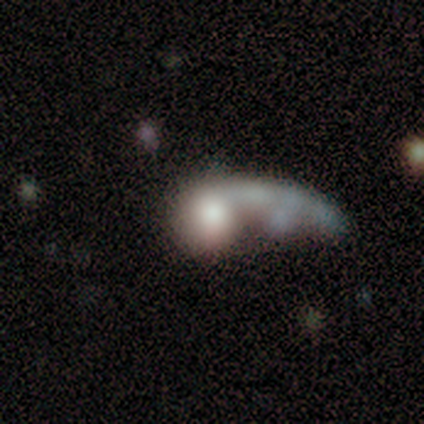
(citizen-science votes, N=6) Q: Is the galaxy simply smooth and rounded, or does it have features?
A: smooth — 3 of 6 (50%, tied with featured or disk).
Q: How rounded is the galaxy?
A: round — 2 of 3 (67%).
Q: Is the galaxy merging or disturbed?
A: major disturbance — 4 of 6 (67%).